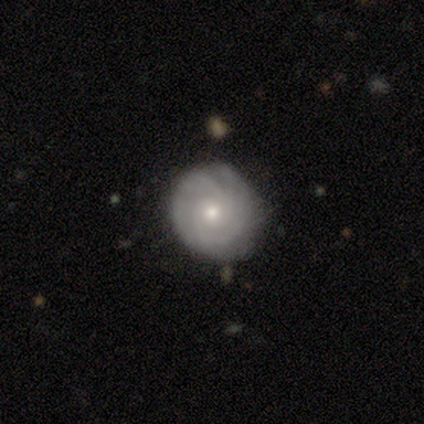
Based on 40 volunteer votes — Smooth or featured?
  - featured or disk: 72% *
  - smooth: 20%
  - star or artifact: 8%
Edge-on disk?
  - no: 100% *
  - yes: 0%
Bar?
  - no: 79% *
  - weak: 21%
  - strong: 0%
Spiral arms?
  - yes: 93% *
  - no: 7%
Spiral winding?
  - tight: 89% *
  - medium: 11%
  - loose: 0%
Spiral arm count?
  - can't tell: 41% *
  - 2: 26%
  - 3: 19%
  - 4: 11%
  - more than 4: 4%
  - 1: 0%
Bulge size?
  - moderate: 69% *
  - small: 28%
  - large: 3%
  - dominant: 0%
  - none: 0%
Merging?
  - none: 81% *
  - minor disturbance: 16%
  - major disturbance: 3%
  - merger: 0%